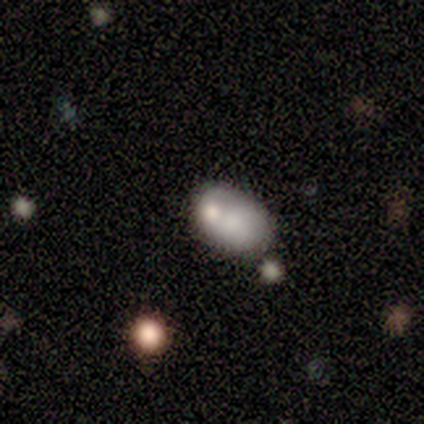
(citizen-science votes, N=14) A smooth galaxy with no disk features (64%) that is in between round and cigar-shaped (89%). Merging: none (43%, tied with merger).